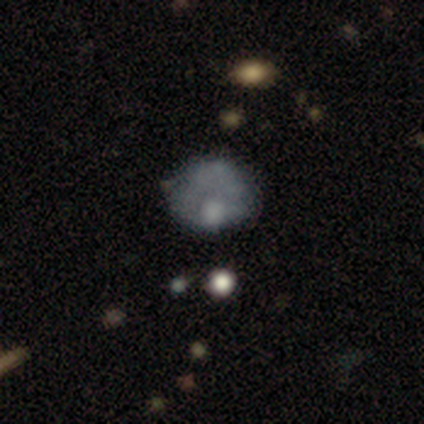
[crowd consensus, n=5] Smooth or featured?
  - featured or disk: 100% *
  - smooth: 0%
  - star or artifact: 0%
Edge-on disk?
  - no: 100% *
  - yes: 0%
Bar?
  - no: 100% *
  - strong: 0%
  - weak: 0%
Spiral arms?
  - no: 100% *
  - yes: 0%
Bulge size?
  - moderate: 60% *
  - none: 40%
  - dominant: 0%
  - large: 0%
  - small: 0%
Merging?
  - none: 60% *
  - minor disturbance: 20%
  - major disturbance: 20%
  - merger: 0%